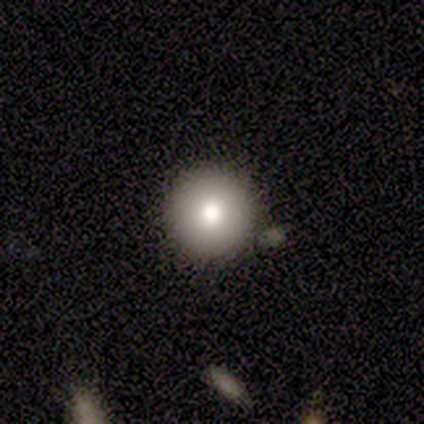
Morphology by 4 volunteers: Overall: smooth (100%). How rounded: round (100%). Merging: none (100%).